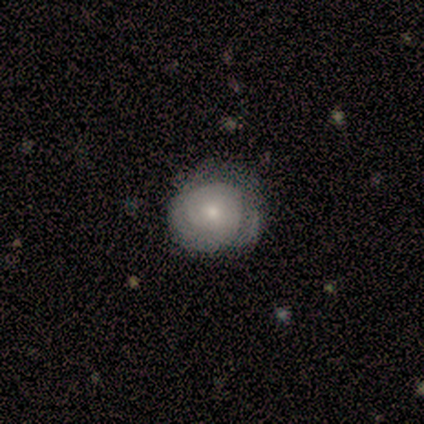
Smooth or featured? featured or disk (60%)
Edge-on disk? no (100%)
Bar? no (100%)
Spiral arms? yes (67%)
Spiral winding? tight (100%)
Spiral arm count? 2 (50%, tied with can't tell)
Bulge size? small (67%)
Merging? none (75%)